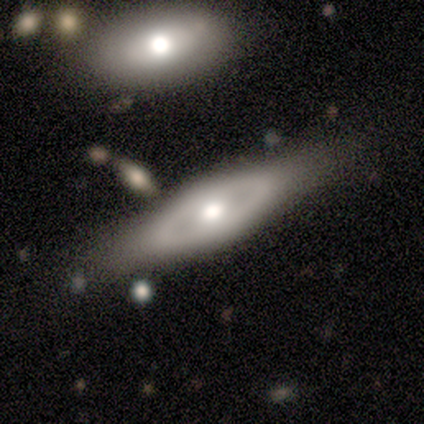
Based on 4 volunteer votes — Smooth or featured? featured or disk (75%)
Edge-on disk? no (67%)
Bar? no (100%)
Spiral arms? no (100%)
Bulge size? moderate (100%)
Merging? none (75%)